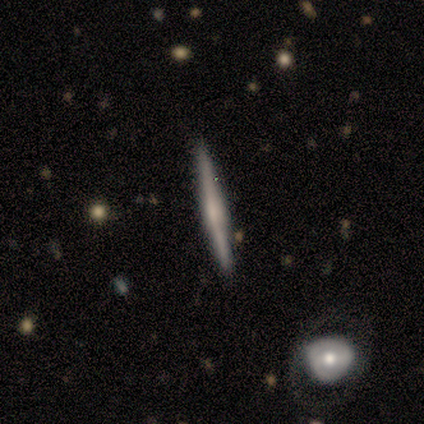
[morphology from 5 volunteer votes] smooth 60%, featured or disk 40%, star or artifact 0%. Down the decision tree: how rounded — cigar-shaped (100%); merging — none (100%).